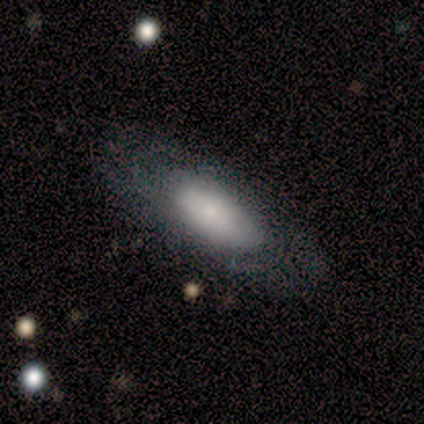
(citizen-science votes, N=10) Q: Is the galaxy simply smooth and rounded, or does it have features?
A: smooth — 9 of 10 (90%).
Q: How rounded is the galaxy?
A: in between — 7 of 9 (78%).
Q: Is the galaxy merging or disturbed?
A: none — 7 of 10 (70%).